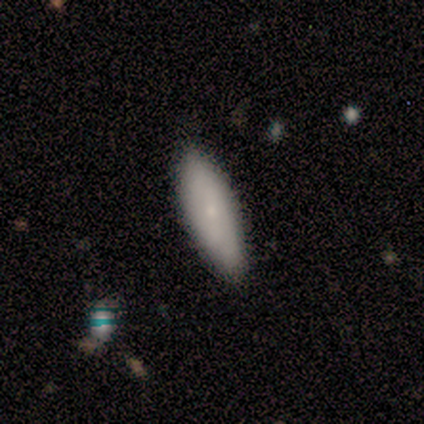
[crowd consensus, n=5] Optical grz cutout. It shows a featured or disk galaxy (60%) with no bar (100%), no spiral arms (100%) and a small central bulge (100%). Merging: none (100%).